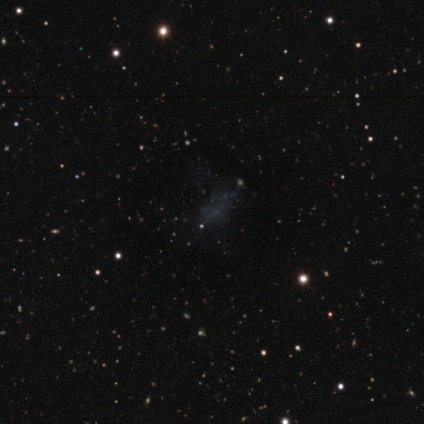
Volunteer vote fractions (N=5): A featured or disk galaxy (40%, tied with star or artifact) with no bar (100%), no spiral arms (100%) and no central bulge (100%). Merging: none (100%).